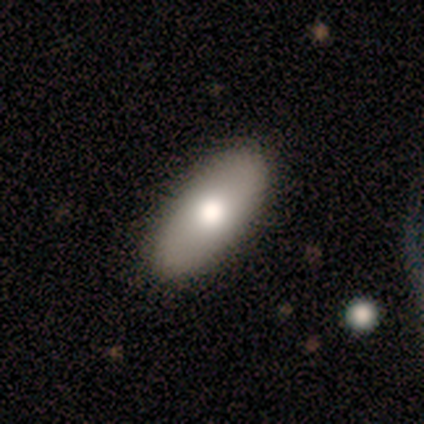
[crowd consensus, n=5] Morphology: type=smooth (40%, tied with featured or disk); roundness=in between (100%); merging=none (100%).